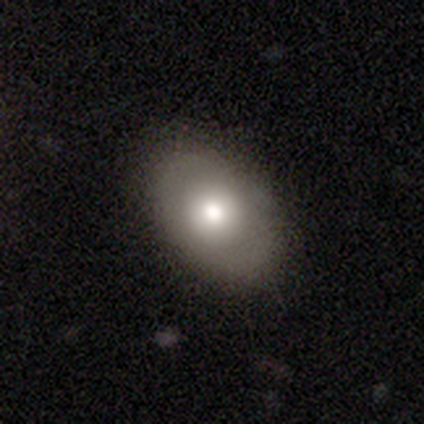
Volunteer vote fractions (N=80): Morphology: type=smooth (69%); roundness=in between (73%); merging=none (43%).